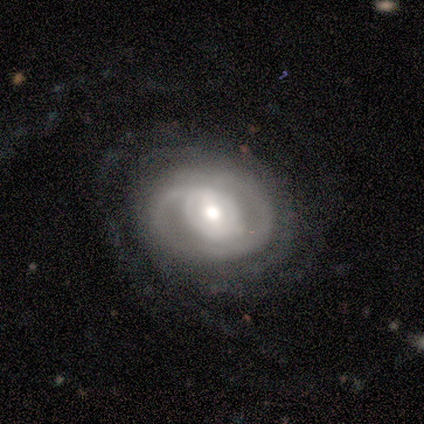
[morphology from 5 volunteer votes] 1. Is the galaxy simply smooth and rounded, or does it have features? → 80% featured or disk, 20% star or artifact, 0% smooth.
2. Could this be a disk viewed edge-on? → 100% no, 0% yes.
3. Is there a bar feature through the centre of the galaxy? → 50% weak (tied), 50% no (tied), 0% strong.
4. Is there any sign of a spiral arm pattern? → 75% yes, 25% no.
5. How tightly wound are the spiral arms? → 67% loose, 33% tight, 0% medium.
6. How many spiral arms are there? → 67% 2, 33% can't tell, 0% 1, 0% 3, 0% 4, 0% more than 4.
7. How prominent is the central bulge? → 100% moderate, 0% dominant, 0% large, 0% small, 0% none.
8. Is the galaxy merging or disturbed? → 75% none, 25% major disturbance, 0% minor disturbance, 0% merger.